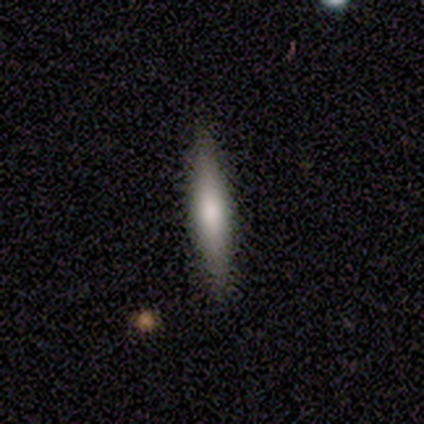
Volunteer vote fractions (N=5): Overall: smooth (60%; featured or disk 20%). How rounded: cigar-shaped (100%). Merging: none (75%).